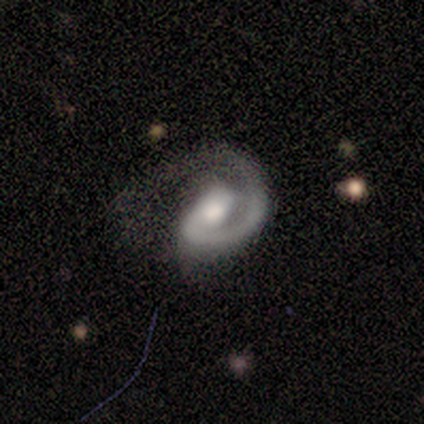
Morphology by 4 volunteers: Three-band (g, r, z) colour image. It shows a featured or disk galaxy (100%) with a weak bar (50%, tied with no), 1 (100%) medium (50%) spiral arms (100%) and a moderate central bulge (50%). Merging: minor disturbance (50%, tied with major disturbance).